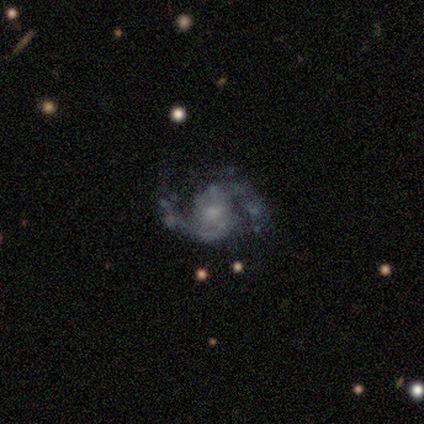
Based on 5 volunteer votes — A featured or disk galaxy (100%) with no bar (60%), 2 (100%) medium (100%) spiral arms (100%) and a small central bulge (60%).

Vote fractions:
- Smooth or featured? featured or disk: 100% / smooth: 0% / star or artifact: 0%
- Edge-on disk? no: 100% / yes: 0%
- Bar? no: 60% / weak: 40% / strong: 0%
- Spiral arms? yes: 100% / no: 0%
- Spiral winding? medium: 100% / tight: 0% / loose: 0%
- Spiral arm count? 2: 100% / 1: 0% / 3: 0% / 4: 0% / more than 4: 0% / can't tell: 0%
- Bulge size? small: 60% / moderate: 40% / dominant: 0% / large: 0% / none: 0%
- Merging? none: 100% / minor disturbance: 0% / major disturbance: 0% / merger: 0%